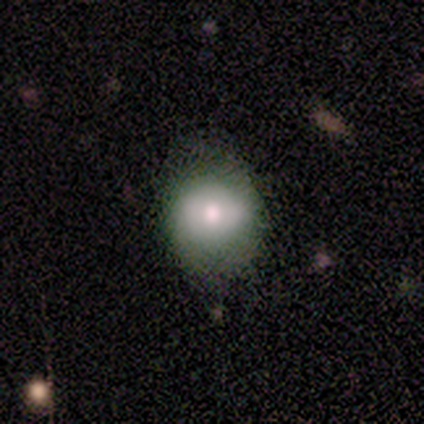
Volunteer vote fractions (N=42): Smooth or featured: smooth — 60% (featured or disk — 38%)
How rounded: round — 68% (in between — 32%)
Merging: none — 76% (minor disturbance — 20%)